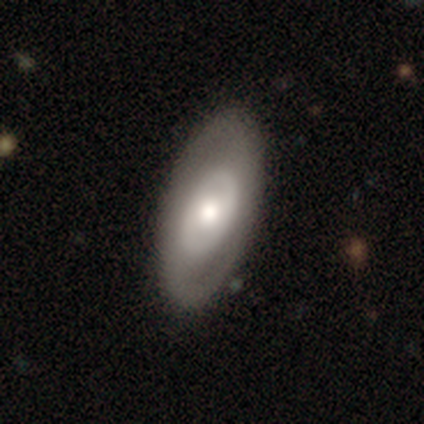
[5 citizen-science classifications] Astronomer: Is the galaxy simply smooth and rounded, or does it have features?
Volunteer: featured or disk — 60% (runner-up: smooth, 40%).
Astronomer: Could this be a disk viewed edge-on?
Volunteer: no — 100%.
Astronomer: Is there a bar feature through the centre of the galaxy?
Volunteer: weak — 67%.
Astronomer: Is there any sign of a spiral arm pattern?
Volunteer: yes — 67%.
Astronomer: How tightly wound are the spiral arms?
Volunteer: medium — 50%, tied with loose at 50%.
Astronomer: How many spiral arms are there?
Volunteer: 2 — 100%.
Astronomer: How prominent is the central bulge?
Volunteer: moderate — 67%.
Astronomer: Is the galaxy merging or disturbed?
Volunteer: none — 80%.